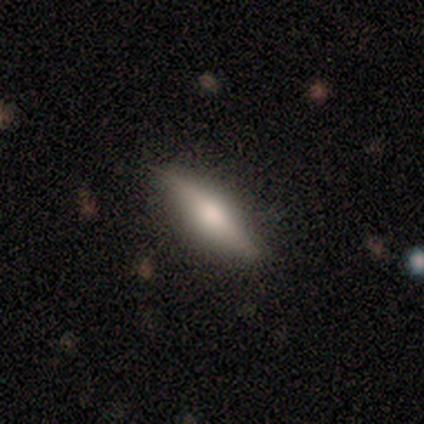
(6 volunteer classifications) Morphology: type=featured or disk (67%); edge-on=yes (100%); edge-on bulge=rounded (75%); merging=none (50%).